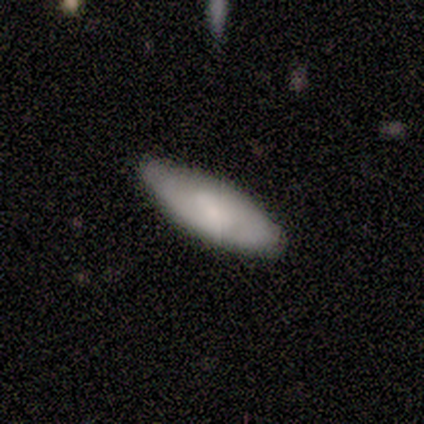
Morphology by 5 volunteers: type=smooth (80%); roundness=in between (75%); merging=none (75%).